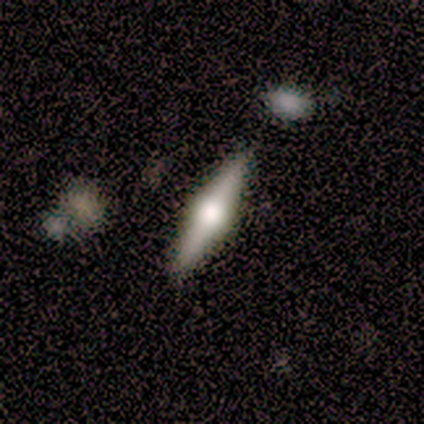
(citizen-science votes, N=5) Smooth or featured? 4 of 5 (80%) said featured or disk. Edge-on disk? 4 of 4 (100%) said yes. Edge-on bulge? 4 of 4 (100%) said rounded. Merging? 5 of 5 (100%) said none.